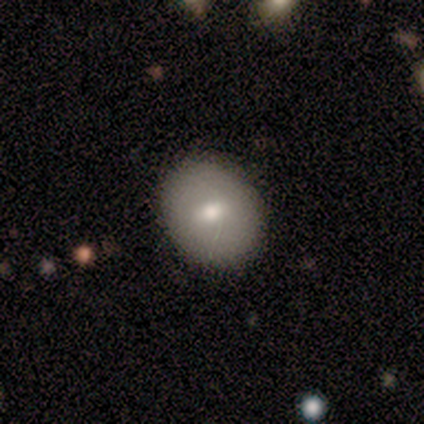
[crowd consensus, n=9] This is likely a smooth galaxy (67%). How rounded: possibly round (50%, tied with in between). Merging: clearly none (100%).